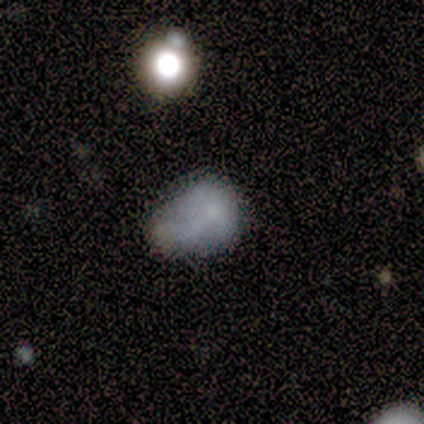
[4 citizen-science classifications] This is clearly a smooth galaxy (100%). How rounded: clearly in between (100%). Merging: possibly none (50%).